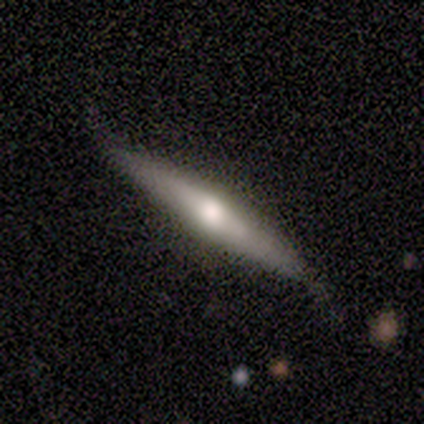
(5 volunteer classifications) This appears to be a featured or disk galaxy (60%) viewed edge-on (100%) with a rounded central bulge (100%). Merging: none (60%).